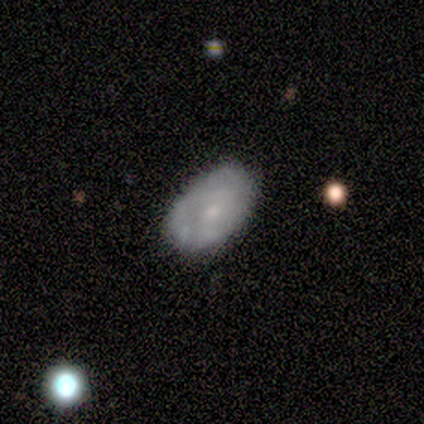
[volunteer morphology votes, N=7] type=smooth (57%); roundness=in between (100%); merging=none (57%).